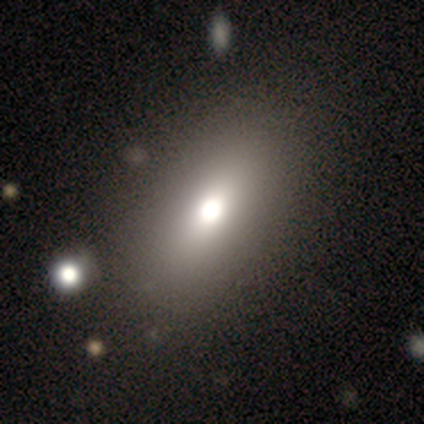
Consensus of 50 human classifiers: Volunteers were most divided on "smooth or featured": smooth: 78%, featured or disk: 18%, star or artifact: 4%. More confident: how rounded — in between (92%); merging — none (88%).